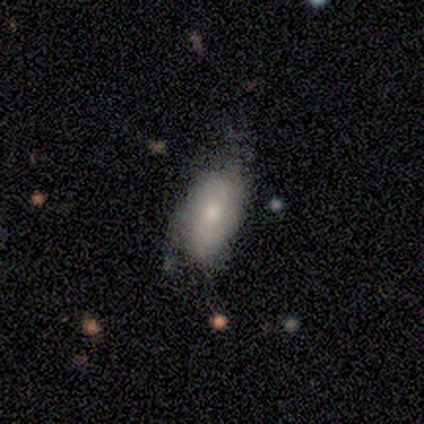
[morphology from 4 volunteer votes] A smooth galaxy with no disk features (75%) that is in between round and cigar-shaped (100%). Merging: none (50%, tied with minor disturbance).